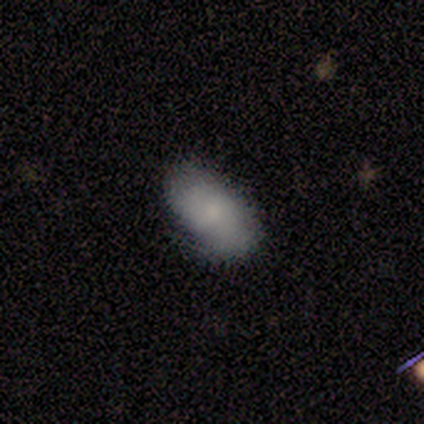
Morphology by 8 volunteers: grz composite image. It shows a smooth galaxy with no disk features (88%) that is in between round and cigar-shaped (100%). Merging: minor disturbance (62%).